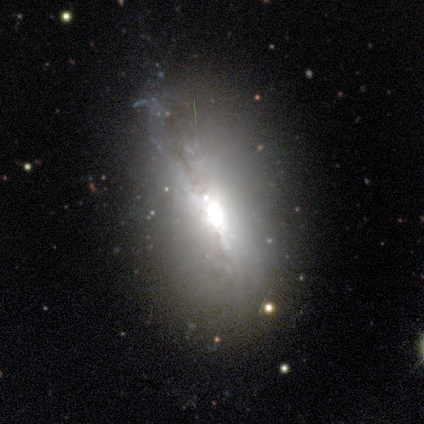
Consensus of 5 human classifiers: This is likely a featured or disk galaxy (60%). It is likely not viewed edge-on (67%). Bar: clearly strong (100%). Spiral arm pattern: clearly no (100%). Central bulge: clearly large (100%). Merging: marginally none (40%, tied with major disturbance).